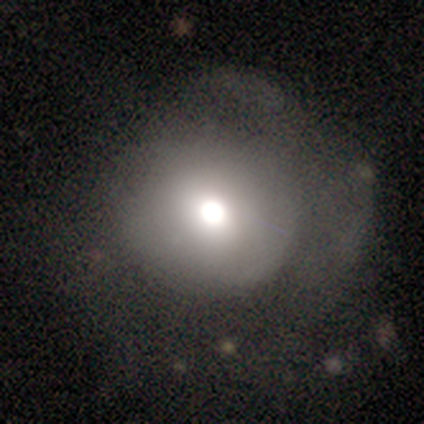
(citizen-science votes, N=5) smooth_or_featured: smooth (p=0.40) [tied with: featured or disk p=0.40]
how_rounded: round (p=1.00)
merging: none (p=0.50) [tied with: minor disturbance p=0.50]